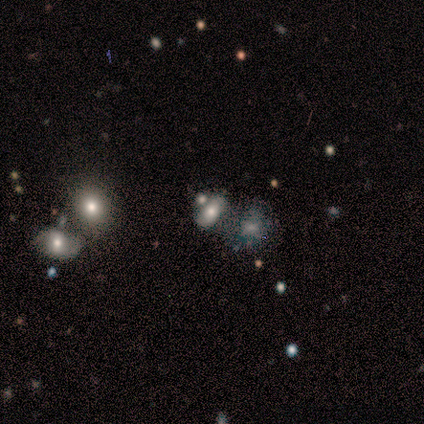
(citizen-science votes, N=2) This is clearly a smooth galaxy (100%). How rounded: possibly round (50%, tied with in between). Merging: possibly minor disturbance (50%, tied with merger).